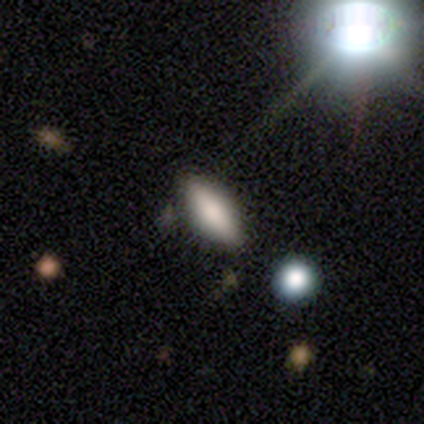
Smooth or featured? 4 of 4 (100%) said smooth. How rounded? 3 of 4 (75%) said in between. Merging? 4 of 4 (100%) said none.